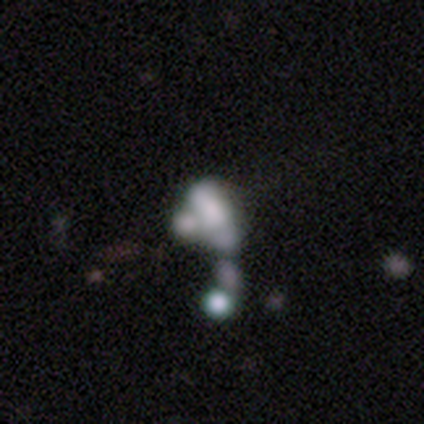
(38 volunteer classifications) Morphology: type=featured or disk (58%); edge-on=no (86%); bar=no (95%); spiral arms=no (89%); bulge=none (63%); merging=merger (47%).